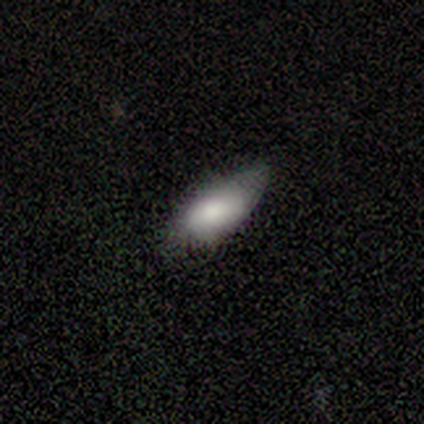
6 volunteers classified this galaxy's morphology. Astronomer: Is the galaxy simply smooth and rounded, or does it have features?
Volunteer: smooth — 83%.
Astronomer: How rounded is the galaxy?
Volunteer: in between — 100%.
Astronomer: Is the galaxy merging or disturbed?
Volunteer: minor disturbance — 67%.